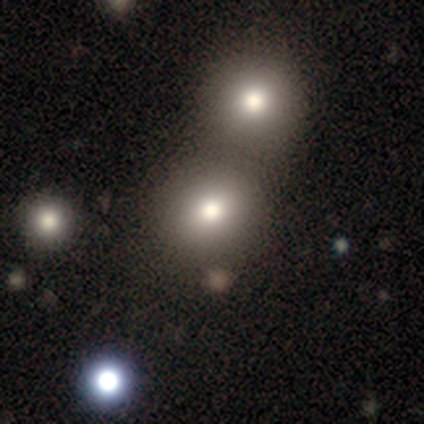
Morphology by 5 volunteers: This appears to be a smooth galaxy with no disk features (80%) that is round (75%). Merging: none (40%, tied with merger).